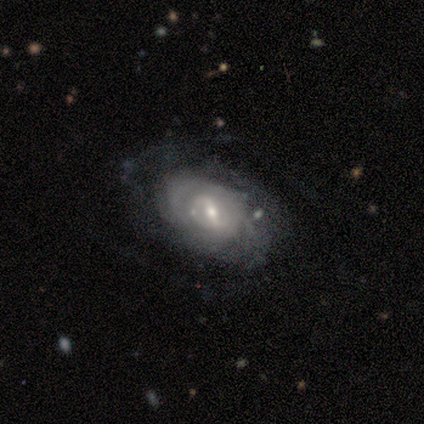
This is clearly a featured or disk galaxy (100%). It is clearly not viewed edge-on (100%). Bar: likely weak (60%). Spiral arm pattern: likely yes (60%). Spiral arm count: clearly can't tell (100%). Spiral winding: marginally tight (33%, tied with medium and loose). Central bulge: likely small (60%). Merging: likely none (60%).